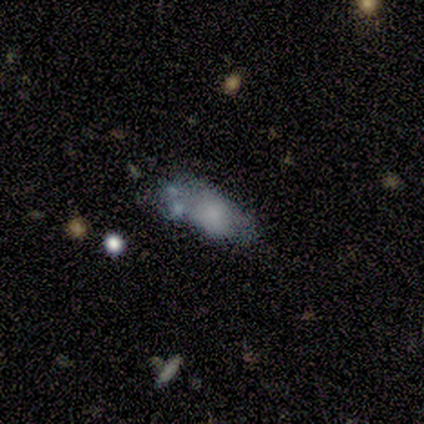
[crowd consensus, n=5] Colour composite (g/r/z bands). It shows a smooth galaxy with no disk features (80%) that is in between round and cigar-shaped (100%). Merging: none (40%, tied with merger).